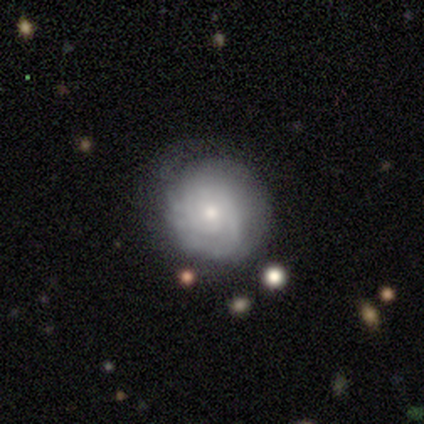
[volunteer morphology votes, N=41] A featured or disk galaxy (56%) with no bar (74%), tight (70%) spiral arms (100%) and a moderate central bulge (61%). Merging: none (70%).